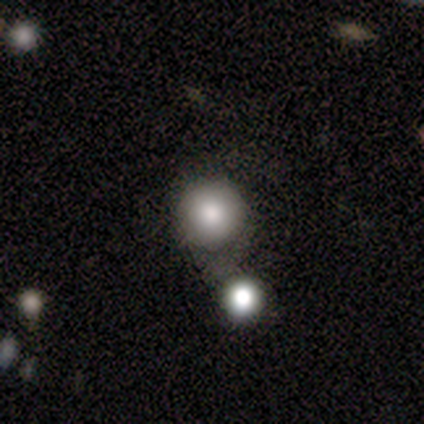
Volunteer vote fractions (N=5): Q: Smooth or featured?
A: smooth (60%); runner-up: featured or disk (20%)
Q: How rounded?
A: round (100%)
Q: Merging?
A: none (50%); tied with: merger (50%)